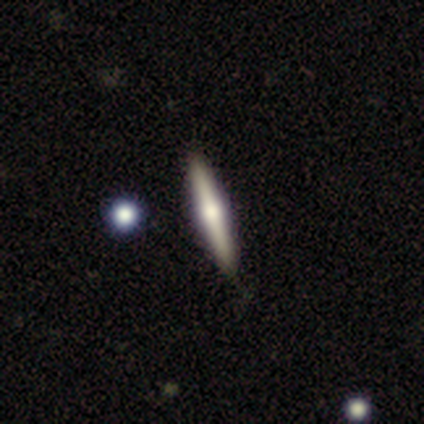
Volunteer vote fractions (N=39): This is likely a featured or disk galaxy (74%). It is clearly viewed edge-on (100%). Edge-on bulge: clearly rounded (93%). Merging: likely none (63%).